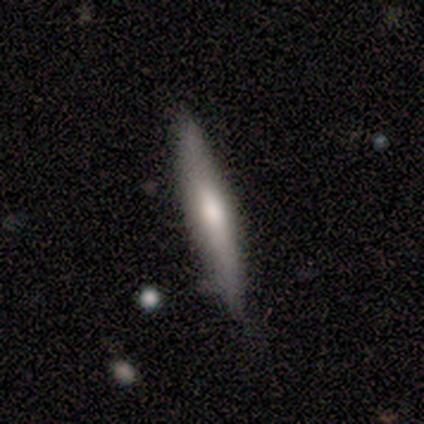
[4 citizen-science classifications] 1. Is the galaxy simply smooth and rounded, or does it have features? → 50% smooth (tied), 50% featured or disk (tied), 0% star or artifact.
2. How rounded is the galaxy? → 100% cigar-shaped, 0% round, 0% in between.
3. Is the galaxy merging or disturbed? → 75% none, 25% merger, 0% minor disturbance, 0% major disturbance.